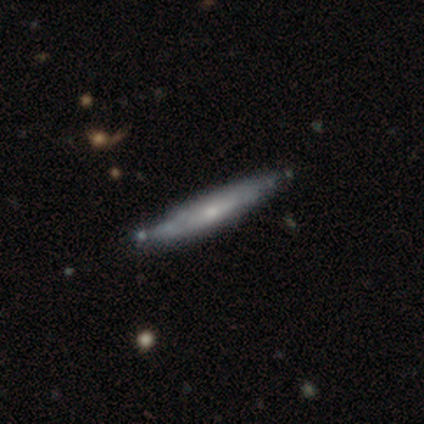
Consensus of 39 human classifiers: smooth-or-featured: featured or disk: 59% | smooth: 36% | star or artifact: 5%
  disk-edge-on: yes: 91% | no: 9%
    edge-on-bulge: rounded: 57% | none: 43% | boxy: 0%
  merging: none: 70% | minor disturbance: 11% | merger: 3% | major disturbance: 0%